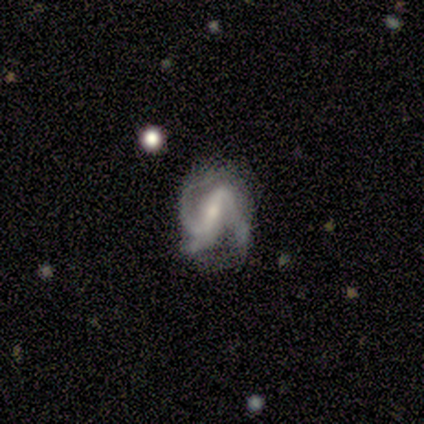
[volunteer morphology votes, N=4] This is likely a featured or disk galaxy (75%). It is clearly not viewed edge-on (100%). Bar: likely weak (67%). Spiral arm pattern: likely yes (67%). Spiral arm count: clearly 2 (100%). Spiral winding: possibly tight (50%, tied with loose). Central bulge: clearly small (100%). Merging: likely minor disturbance (67%).